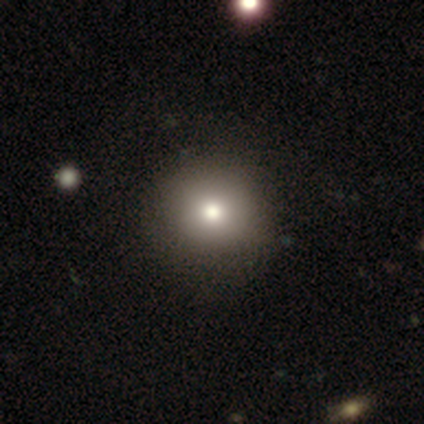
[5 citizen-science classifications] This appears to be a smooth galaxy with no disk features (80%) that is round (100%). Merging: none (100%).